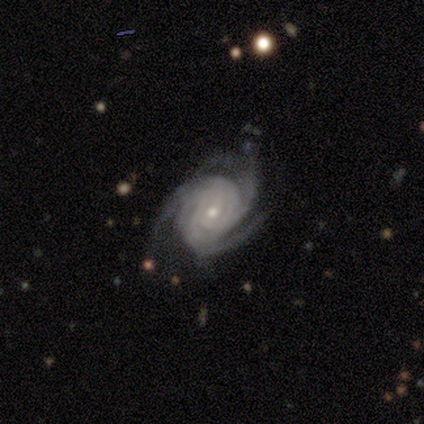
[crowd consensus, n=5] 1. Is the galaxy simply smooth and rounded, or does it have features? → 100% featured or disk, 0% smooth, 0% star or artifact.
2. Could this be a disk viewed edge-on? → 100% no, 0% yes.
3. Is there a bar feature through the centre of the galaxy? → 80% no, 20% weak, 0% strong.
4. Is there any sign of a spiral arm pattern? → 100% yes, 0% no.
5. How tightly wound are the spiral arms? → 60% tight, 40% medium, 0% loose.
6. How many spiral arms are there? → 80% 3, 20% more than 4, 0% 1, 0% 2, 0% 4, 0% can't tell.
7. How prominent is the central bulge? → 60% small, 40% moderate, 0% dominant, 0% large, 0% none.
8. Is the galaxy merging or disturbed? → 80% none, 20% minor disturbance, 0% major disturbance, 0% merger.